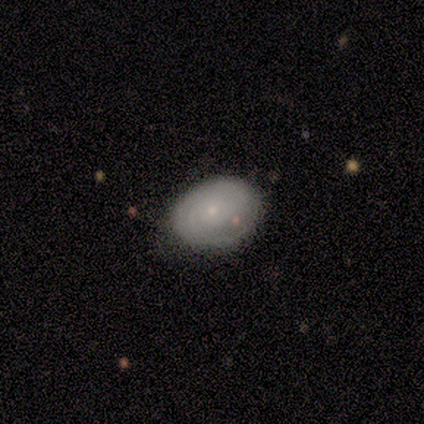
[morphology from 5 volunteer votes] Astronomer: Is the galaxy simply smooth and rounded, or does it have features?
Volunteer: featured or disk — 80%.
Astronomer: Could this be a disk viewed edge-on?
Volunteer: no — 100%.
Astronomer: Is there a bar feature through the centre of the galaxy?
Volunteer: no — 75%.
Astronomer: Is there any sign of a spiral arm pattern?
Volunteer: yes — 100%.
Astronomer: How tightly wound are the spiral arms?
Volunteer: medium — 75%.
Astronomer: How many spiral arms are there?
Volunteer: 1 — 50%.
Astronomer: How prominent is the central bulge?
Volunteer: small — 75%.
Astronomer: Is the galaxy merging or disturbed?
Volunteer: none — 80%.